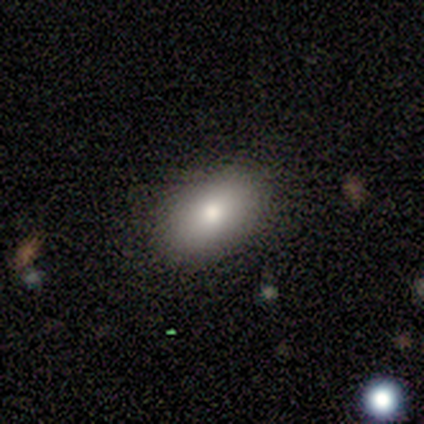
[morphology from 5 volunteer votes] Smooth or featured?
  - smooth: 80% *
  - featured or disk: 20%
  - star or artifact: 0%
How rounded?
  - in between: 100% *
  - round: 0%
  - cigar-shaped: 0%
Merging?
  - none: 100% *
  - minor disturbance: 0%
  - major disturbance: 0%
  - merger: 0%